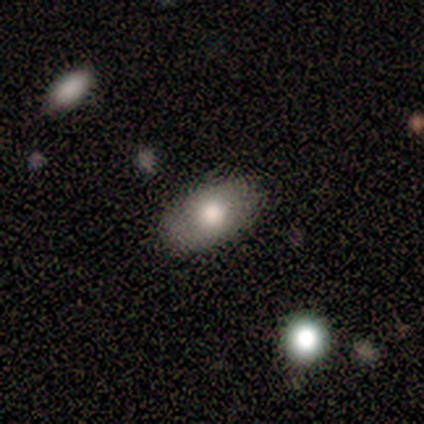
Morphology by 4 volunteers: A smooth galaxy with no disk features (100%) that is in between round and cigar-shaped (100%).

Vote fractions:
- Smooth or featured? smooth: 100% / featured or disk: 0% / star or artifact: 0%
- How rounded? in between: 100% / round: 0% / cigar-shaped: 0%
- Merging? none: 75% / minor disturbance: 25% / major disturbance: 0% / merger: 0%